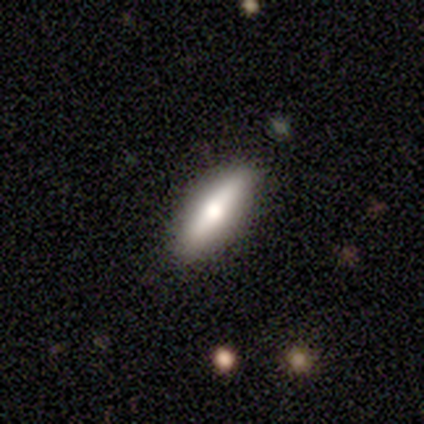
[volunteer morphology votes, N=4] Smooth or featured?
  - smooth: 75% *
  - featured or disk: 25%
  - star or artifact: 0%
How rounded?
  - cigar-shaped: 67% *
  - in between: 33%
  - round: 0%
Merging?
  - none: 75% *
  - minor disturbance: 25%
  - major disturbance: 0%
  - merger: 0%